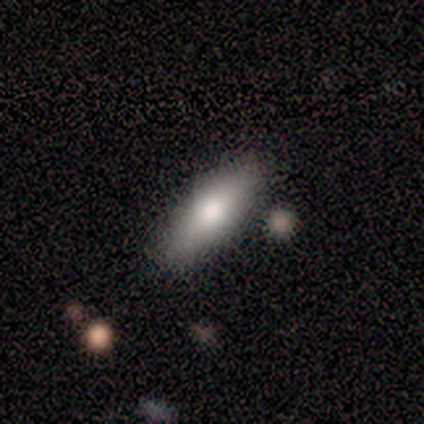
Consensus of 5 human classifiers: Volunteers were most divided on "how rounded": in between: 75%, cigar-shaped: 25%, round: 0%. More confident: merging — none (100%); smooth or featured — smooth (80%).